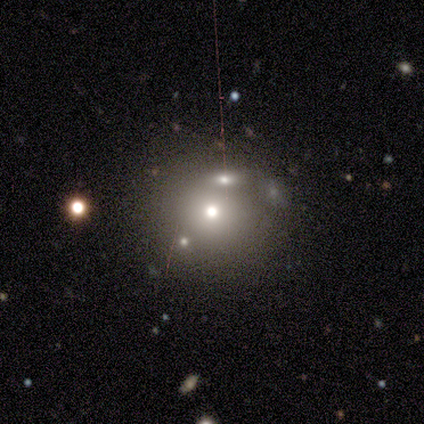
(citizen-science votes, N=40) smooth_or_featured: smooth (p=0.68) [alt: featured or disk p=0.17]
how_rounded: round (p=0.96) [alt: in between p=0.04]
merging: none (p=0.53) [alt: merger p=0.29]